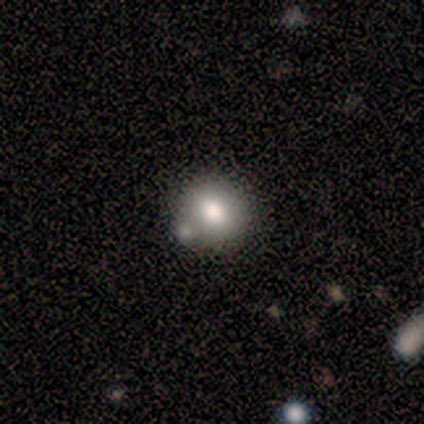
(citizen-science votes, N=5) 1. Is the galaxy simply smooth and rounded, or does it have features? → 60% star or artifact, 40% smooth, 0% featured or disk.